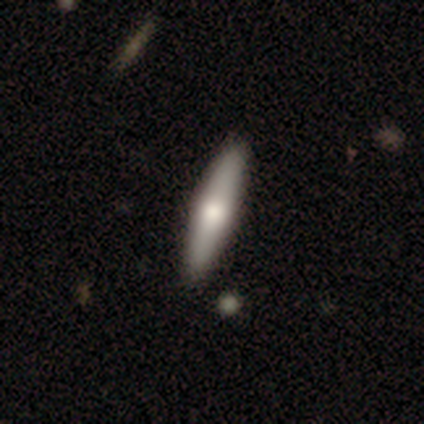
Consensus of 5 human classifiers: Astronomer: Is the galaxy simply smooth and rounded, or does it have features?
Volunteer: featured or disk — 80%.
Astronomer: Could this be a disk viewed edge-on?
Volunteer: yes — 100%.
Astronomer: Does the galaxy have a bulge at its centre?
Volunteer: rounded — 75%.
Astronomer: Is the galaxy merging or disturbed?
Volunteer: none — 100%.